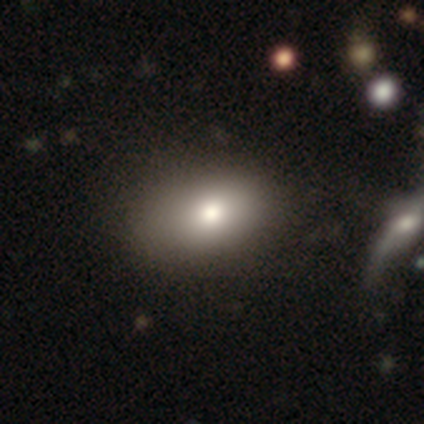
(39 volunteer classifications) A smooth galaxy with no disk features (77%) that is in between round and cigar-shaped (93%).

Vote fractions:
- Smooth or featured? smooth: 77% / featured or disk: 13% / star or artifact: 10%
- How rounded? in between: 93% / round: 7% / cigar-shaped: 0%
- Merging? none: 54% / minor disturbance: 17% / major disturbance: 3% / merger: 3%